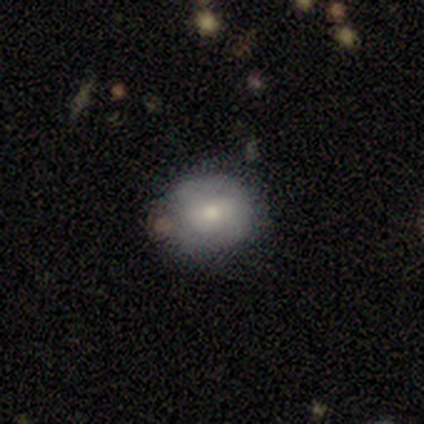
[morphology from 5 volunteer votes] Overall: smooth (60%; featured or disk 40%). How rounded: round (67%; in between 33%). Merging: none (60%; minor disturbance 40%).